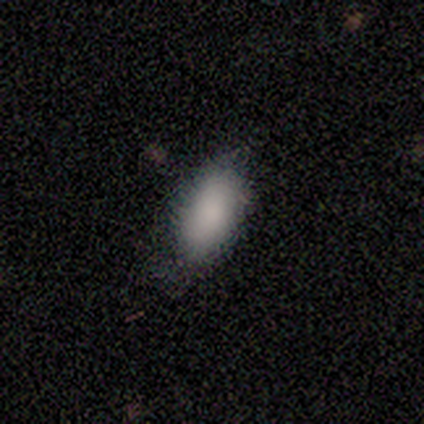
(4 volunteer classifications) A smooth galaxy with no disk features (75%) that is in between round and cigar-shaped (100%).

Vote fractions:
- Smooth or featured? smooth: 75% / featured or disk: 25% / star or artifact: 0%
- How rounded? in between: 100% / round: 0% / cigar-shaped: 0%
- Merging? none: 75% / minor disturbance: 25% / major disturbance: 0% / merger: 0%